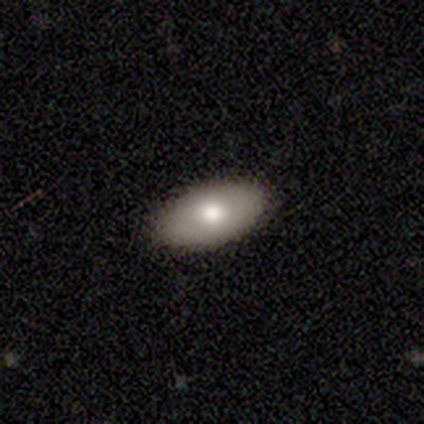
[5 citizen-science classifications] Volunteers were most divided on "smooth or featured": smooth: 80%, featured or disk: 20%, star or artifact: 0%. More confident: how rounded — in between (100%); merging — none (100%).